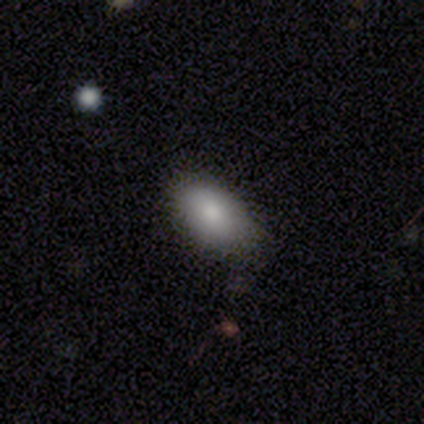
A smooth galaxy with no disk features (80%) that is in between round and cigar-shaped (100%).

Vote fractions:
- Smooth or featured? smooth: 80% / featured or disk: 20% / star or artifact: 0%
- How rounded? in between: 100% / round: 0% / cigar-shaped: 0%
- Merging? none: 60% / minor disturbance: 40% / major disturbance: 0% / merger: 0%